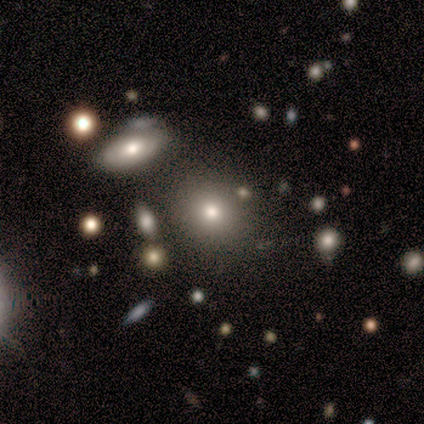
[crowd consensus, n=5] Smooth or featured? 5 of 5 (100%) said smooth. How rounded? 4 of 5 (80%) said round. Merging? 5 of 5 (100%) said none.